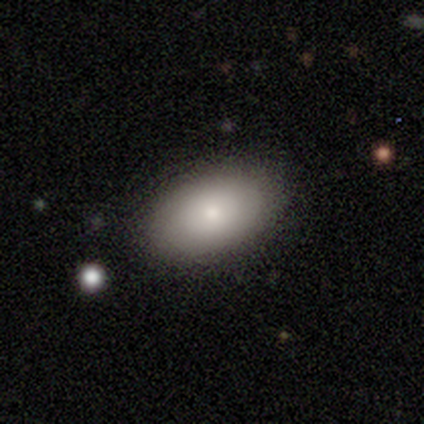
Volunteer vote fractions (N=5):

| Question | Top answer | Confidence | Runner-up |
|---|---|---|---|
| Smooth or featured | smooth | 100% | — |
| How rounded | in between | 80% | round (20%) |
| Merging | none | 100% | — |